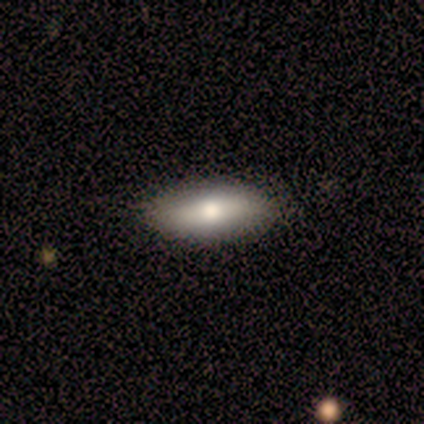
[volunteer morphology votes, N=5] Q: Smooth or featured?
A: smooth (80%); runner-up: featured or disk (20%)
Q: How rounded?
A: in between (100%)
Q: Merging?
A: none (100%)